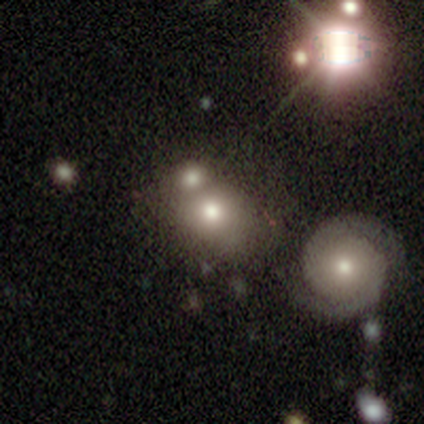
Q: Smooth or featured?
A: smooth (64%); runner-up: featured or disk (25%)
Q: How rounded?
A: round (76%); runner-up: in between (24%)
Q: Merging?
A: merger (51%); runner-up: none (16%)